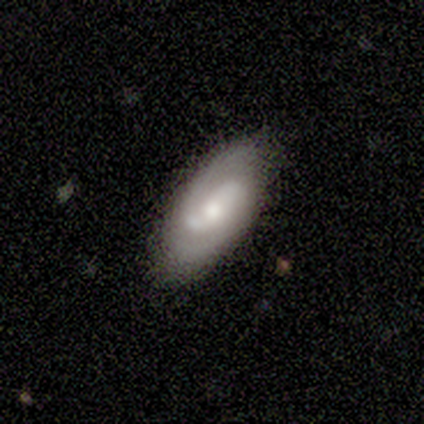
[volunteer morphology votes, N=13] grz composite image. It shows a featured or disk galaxy (77%) with a weak bar (60%), 2 (70%) medium (60%) spiral arms (100%) and a moderate central bulge (70%). Merging: none (92%).